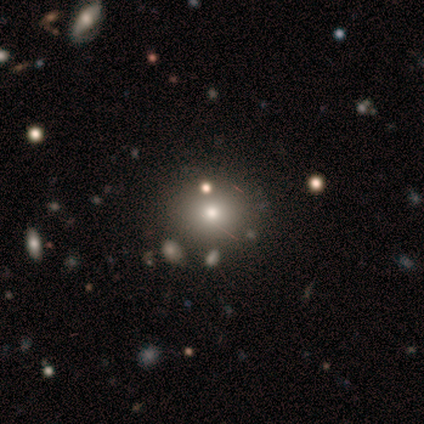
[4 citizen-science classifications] Q: Smooth or featured?
A: smooth (50%); runner-up: featured or disk (25%)
Q: How rounded?
A: round (100%)
Q: Merging?
A: none (100%)